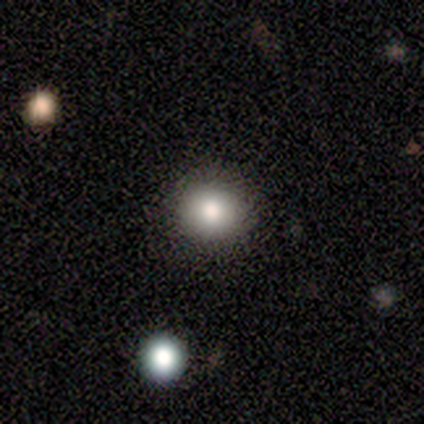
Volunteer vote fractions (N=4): Smooth or featured? 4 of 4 (100%) said smooth. How rounded? 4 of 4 (100%) said round. Merging? 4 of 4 (100%) said none.